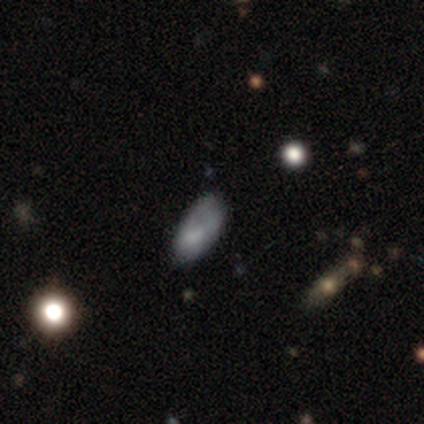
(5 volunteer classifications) A smooth galaxy with no disk features (60%) that is in between round and cigar-shaped (100%). Merging: none (80%).